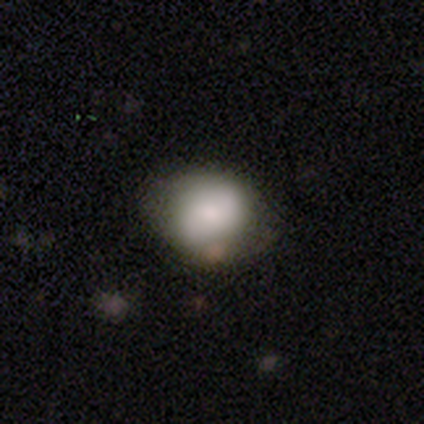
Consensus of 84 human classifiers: Smooth or featured? 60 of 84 (71%) said smooth. How rounded? 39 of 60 (65%) said round. Merging? 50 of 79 (63%) said none.